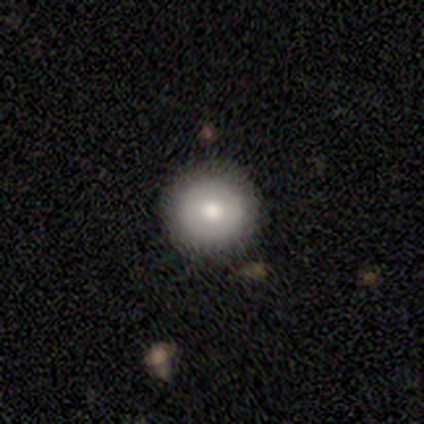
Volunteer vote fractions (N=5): Morphology: type=smooth (60%); roundness=round (100%); merging=none (100%).